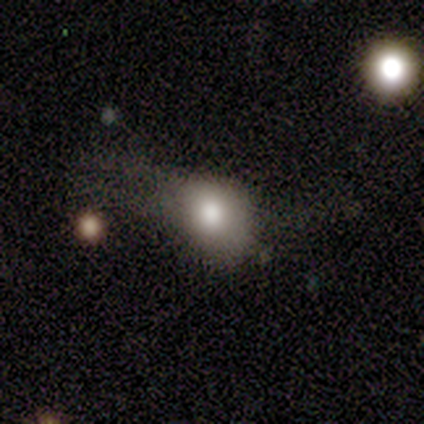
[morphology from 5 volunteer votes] This appears to be a smooth galaxy with no disk features (60%) that is round (67%). Merging: none (33%, tied with minor disturbance and major disturbance).